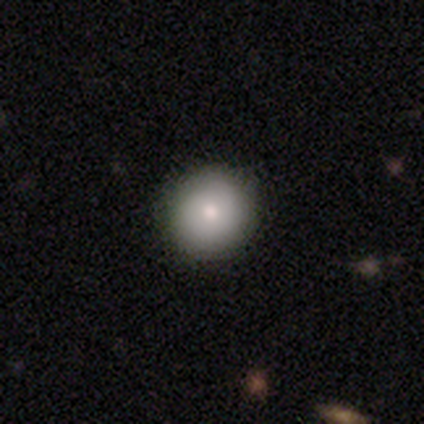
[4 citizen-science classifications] A smooth galaxy with no disk features (75%) that is round (100%). Merging: none (100%).